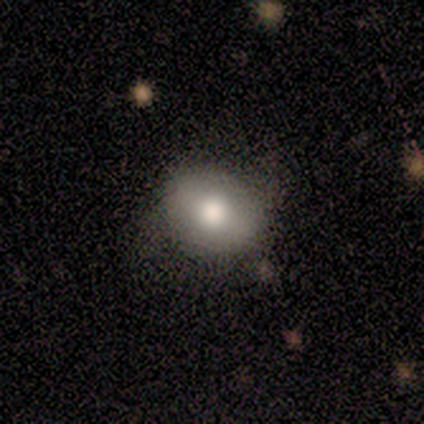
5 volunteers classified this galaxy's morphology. Overall: smooth (100%). How rounded: in between (60%; round 40%). Merging: none (40%, tied with minor disturbance).